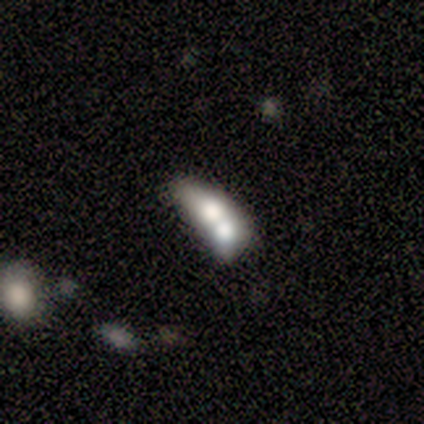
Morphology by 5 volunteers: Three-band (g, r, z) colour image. It shows a smooth galaxy with no disk features (40%, tied with featured or disk) that is in between round and cigar-shaped (100%). Merging: merger (75%).